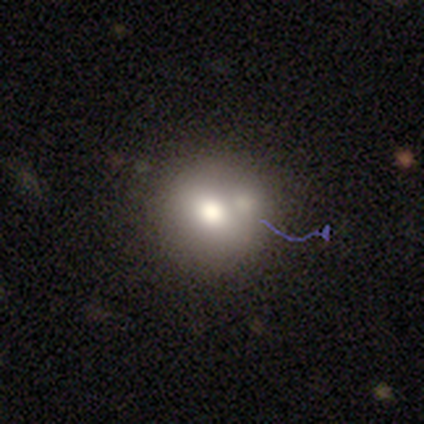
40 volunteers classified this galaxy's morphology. smooth 60%, featured or disk 22%, star or artifact 18%. Down the decision tree: how rounded — round (79%); merging — none (45%).